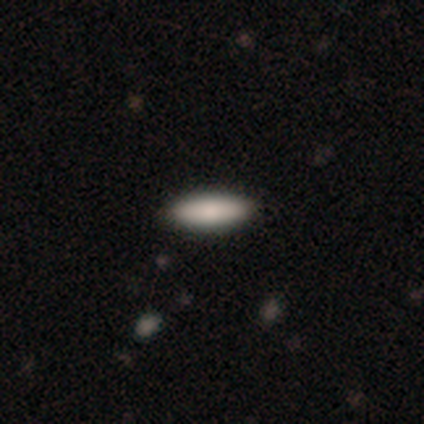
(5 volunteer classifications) Volunteers were most divided on "how rounded": in between: 80%, cigar-shaped: 20%, round: 0%. More confident: smooth or featured — smooth (100%); merging — none (80%).